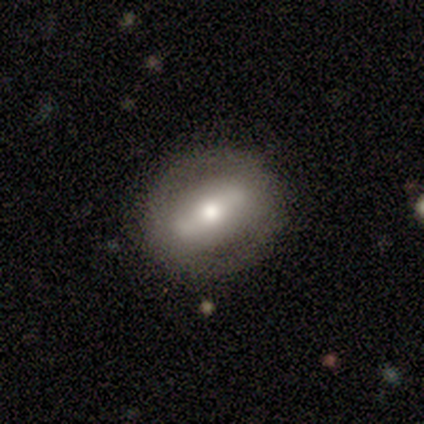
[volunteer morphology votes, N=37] This is likely a featured or disk galaxy (68%). It is clearly not viewed edge-on (84%). Bar: likely strong (71%). Spiral arm pattern: clearly no (81%). Central bulge: likely moderate (67%). Merging: clearly none (94%).